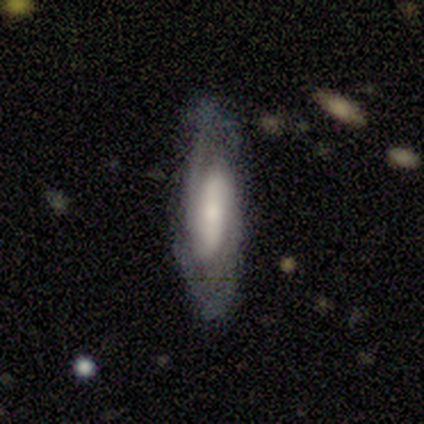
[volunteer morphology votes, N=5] This is marginally a smooth galaxy (40%, tied with featured or disk). How rounded: clearly cigar-shaped (100%). Merging: likely none (75%).